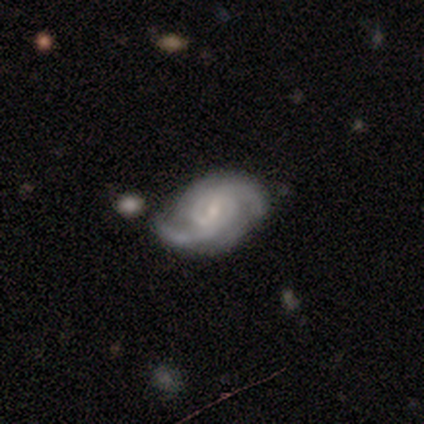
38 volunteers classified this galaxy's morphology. Smooth or featured?
  - featured or disk: 87% *
  - smooth: 11%
  - star or artifact: 3%
Edge-on disk?
  - no: 100% *
  - yes: 0%
Bar?
  - weak: 73% *
  - no: 15%
  - strong: 12%
Spiral arms?
  - yes: 100% *
  - no: 0%
Spiral winding?
  - medium: 36% *
  - tight: 33%
  - loose: 30%
Spiral arm count?
  - 2: 85% *
  - 3: 9%
  - can't tell: 6%
  - 1: 0%
  - 4: 0%
  - more than 4: 0%
Bulge size?
  - small: 73% *
  - moderate: 12%
  - none: 12%
  - dominant: 3%
  - large: 0%
Merging?
  - none: 76% *
  - minor disturbance: 24%
  - major disturbance: 0%
  - merger: 0%